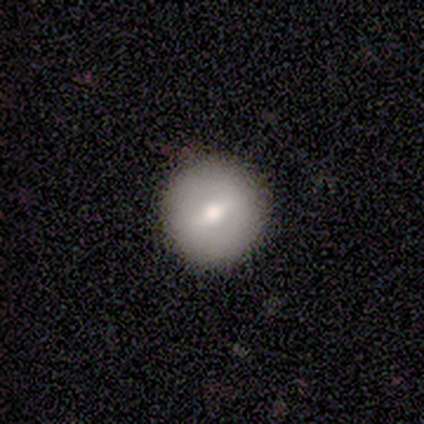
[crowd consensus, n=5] Smooth or featured? smooth (80%)
How rounded? round (100%)
Merging? none (100%)